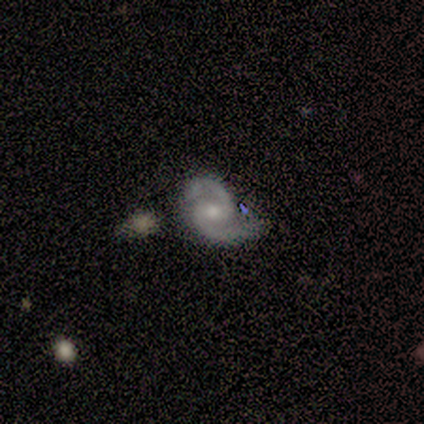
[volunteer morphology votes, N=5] Smooth or featured? featured or disk (100%)
Edge-on disk? no (100%)
Bar? no (100%)
Spiral arms? yes (100%)
Spiral winding? medium (60%)
Spiral arm count? 2 (100%)
Bulge size? small (60%)
Merging? none (60%)